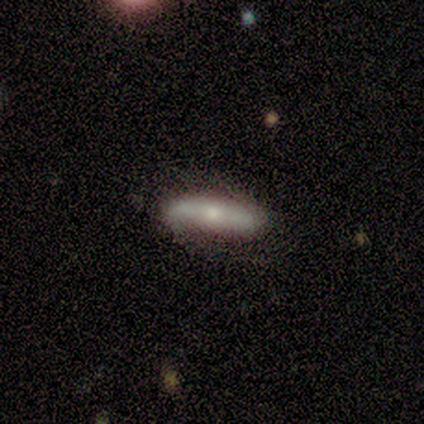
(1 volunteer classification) Q: Smooth or featured?
A: featured or disk (100%)
Q: Edge-on disk?
A: no (100%)
Q: Bar?
A: strong (100%)
Q: Spiral arms?
A: yes (100%)
Q: Spiral winding?
A: tight (100%)
Q: Spiral arm count?
A: 2 (100%)
Q: Bulge size?
A: moderate (100%)
Q: Merging?
A: none (100%)